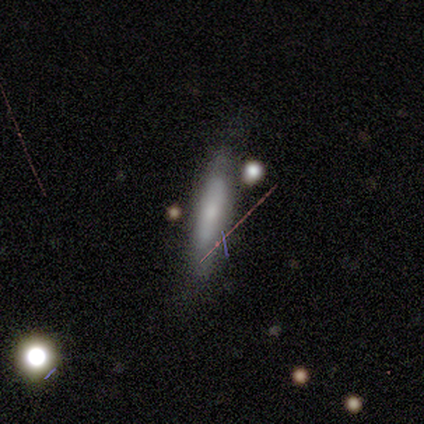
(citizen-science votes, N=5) Smooth or featured: smooth — 80% (featured or disk — 20%)
How rounded: cigar-shaped — 100%
Merging: none — 60% (minor disturbance — 20%)